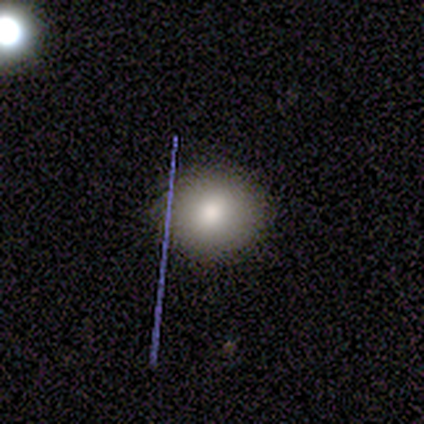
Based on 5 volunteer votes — Smooth or featured?
  - smooth: 100% *
  - featured or disk: 0%
  - star or artifact: 0%
How rounded?
  - round: 60% *
  - in between: 40%
  - cigar-shaped: 0%
Merging?
  - none: 100% *
  - minor disturbance: 0%
  - major disturbance: 0%
  - merger: 0%